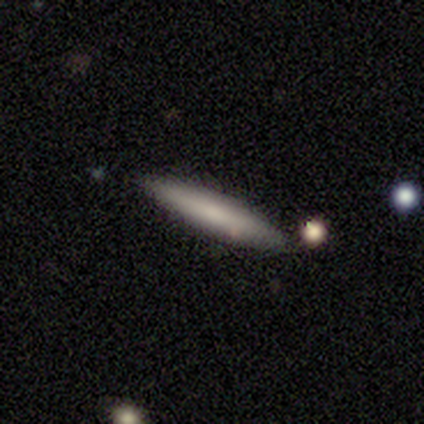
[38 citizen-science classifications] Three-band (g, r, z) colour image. It shows a smooth galaxy with no disk features (63%) that is cigar-shaped (100%). Merging: none (94%).